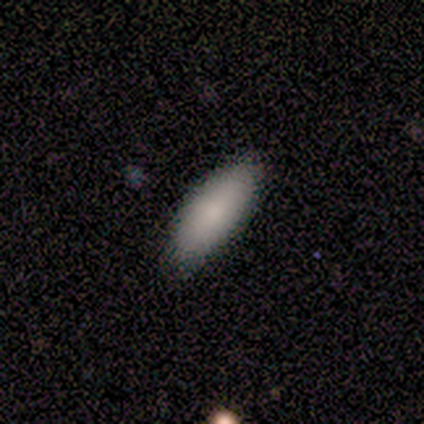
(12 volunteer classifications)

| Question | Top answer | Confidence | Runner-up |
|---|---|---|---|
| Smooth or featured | smooth | 67% | featured or disk (33%) |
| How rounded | in between | 88% | cigar-shaped (12%) |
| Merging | none | 83% | minor disturbance (17%) |